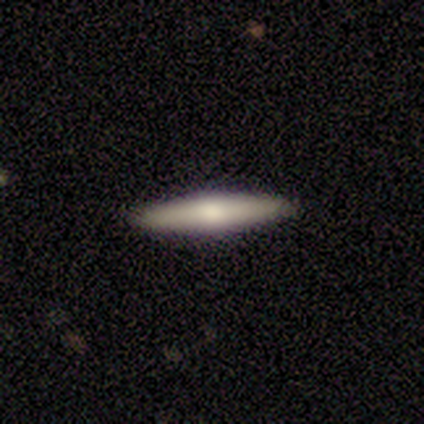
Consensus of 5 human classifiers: smooth_or_featured: smooth (p=0.60) [alt: featured or disk p=0.40]
how_rounded: cigar-shaped (p=1.00)
merging: none (p=1.00)